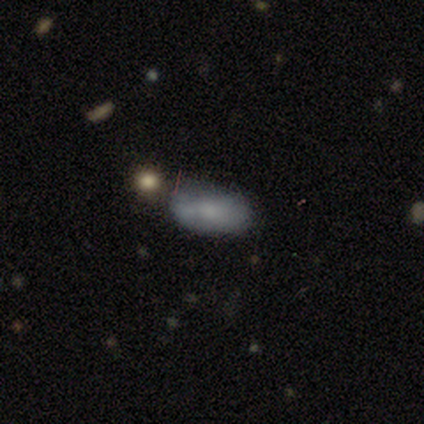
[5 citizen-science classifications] Volunteers were most divided on "merging": none: 75%, merger: 25%, minor disturbance: 0%, major disturbance: 0%. More confident: how rounded — in between (100%); smooth or featured — smooth (80%).